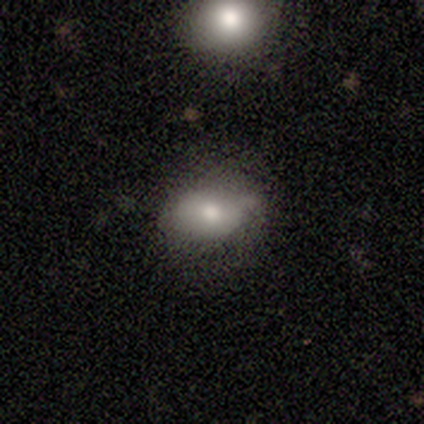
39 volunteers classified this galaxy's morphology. smooth_or_featured: smooth (p=0.79) [alt: featured or disk p=0.18]
how_rounded: in between (p=0.90) [alt: round p=0.10]
merging: none (p=0.58) [alt: minor disturbance p=0.32]